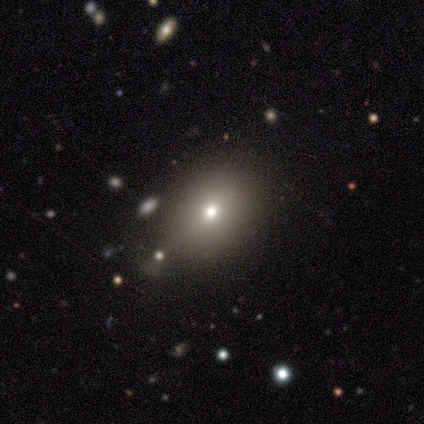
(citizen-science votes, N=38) smooth_or_featured: smooth (p=0.74) [alt: featured or disk p=0.13]
how_rounded: in between (p=0.54) [alt: round p=0.46]
merging: none (p=0.36) [alt: merger p=0.18]